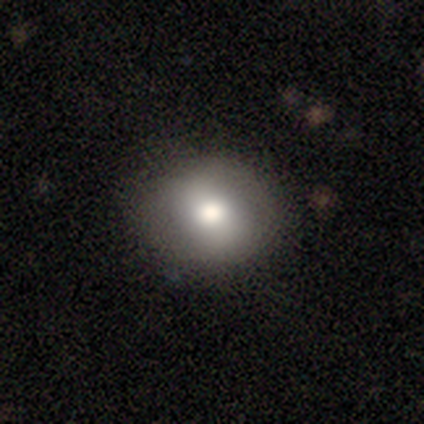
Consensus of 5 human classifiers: smooth-or-featured: smooth: 60% | featured or disk: 40% | star or artifact: 0%
  how-rounded: round: 67% | in between: 33% | cigar-shaped: 0%
  merging: none: 80% | minor disturbance: 20% | major disturbance: 0% | merger: 0%